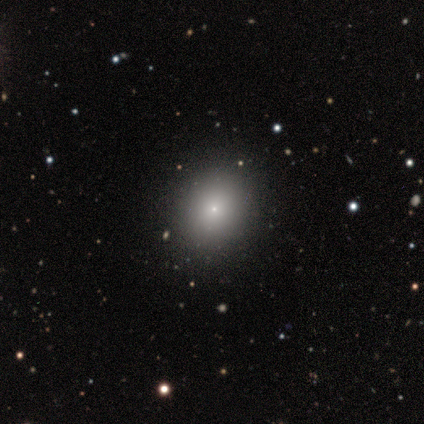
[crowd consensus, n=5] smooth 60%, featured or disk 20%, star or artifact 20%. Down the decision tree: how rounded — round (67%); merging — none (50%, tied with minor disturbance).